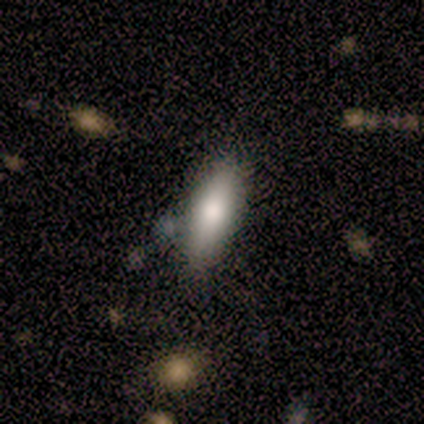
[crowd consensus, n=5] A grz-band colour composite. It shows a smooth galaxy with no disk features (60%) that is cigar-shaped (100%). Merging: none (100%).